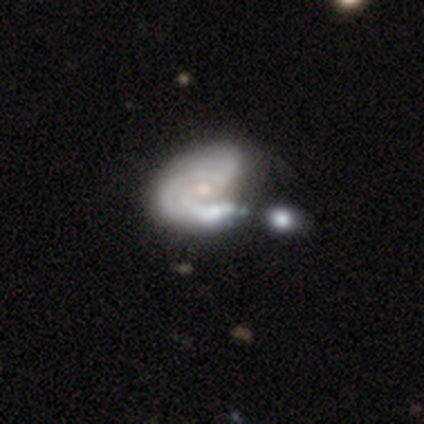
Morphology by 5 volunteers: type=featured or disk (40%, tied with star or artifact); edge-on=no (100%); bar=no (100%); spiral arms=yes (50%, tied with no); winding=medium (100%); arm count=2 (100%); bulge=moderate (50%, tied with small); merging=merger (67%).